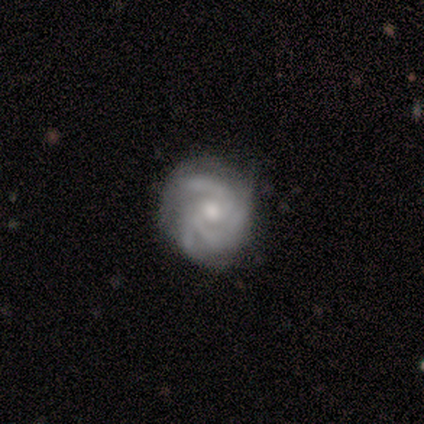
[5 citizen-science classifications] A featured or disk galaxy (100%) with no bar (60%), 3 (100%) medium (60%) spiral arms (100%) and a small central bulge (80%). Merging: none (60%).